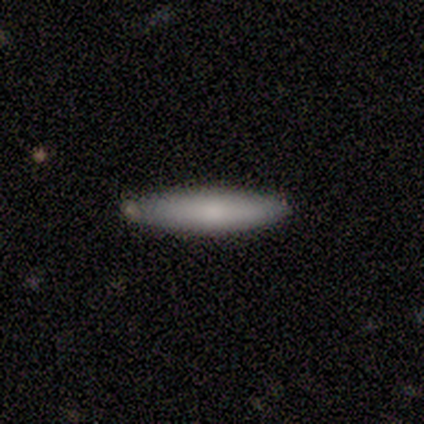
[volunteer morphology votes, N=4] A featured or disk galaxy (50%) viewed edge-on (100%) with no central bulge (50%, tied with rounded). Merging: none (100%).